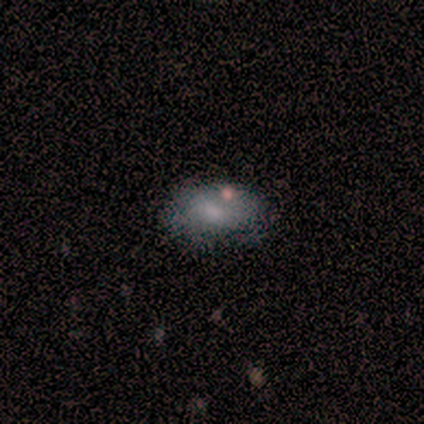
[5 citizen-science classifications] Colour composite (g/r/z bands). It shows a smooth galaxy with no disk features (60%) that is in between round and cigar-shaped (67%). Merging: none (100%).